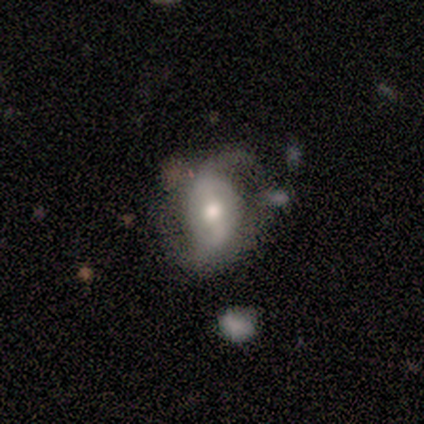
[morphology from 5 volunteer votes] Smooth or featured: featured or disk — 80% (smooth — 20%)
Edge-on disk: no — 100%
Bar: weak — 75% (strong — 25%)
Spiral arms: yes — 100%
Spiral winding: medium — 50% (tied with loose — 50%)
Spiral arm count: 2 — 100%
Bulge size: moderate — 50% (large — 25%)
Merging: minor disturbance — 80% (none — 20%)